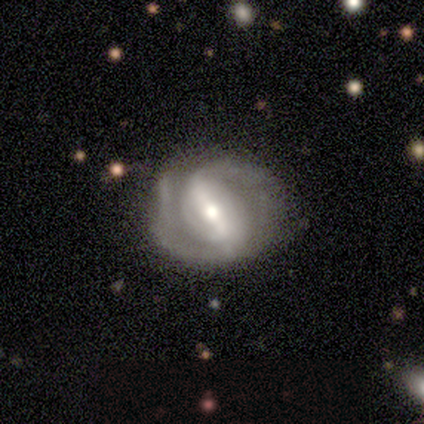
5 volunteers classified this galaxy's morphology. A featured or disk galaxy (100%) with a strong bar (100%), 2 (100%) tight (60%) spiral arms (100%) and a moderate central bulge (60%).

Vote fractions:
- Smooth or featured? featured or disk: 100% / smooth: 0% / star or artifact: 0%
- Edge-on disk? no: 100% / yes: 0%
- Bar? strong: 100% / weak: 0% / no: 0%
- Spiral arms? yes: 100% / no: 0%
- Spiral winding? tight: 60% / medium: 40% / loose: 0%
- Spiral arm count? 2: 100% / 1: 0% / 3: 0% / 4: 0% / more than 4: 0% / can't tell: 0%
- Bulge size? moderate: 60% / large: 20% / small: 20% / dominant: 0% / none: 0%
- Merging? none: 80% / minor disturbance: 20% / major disturbance: 0% / merger: 0%